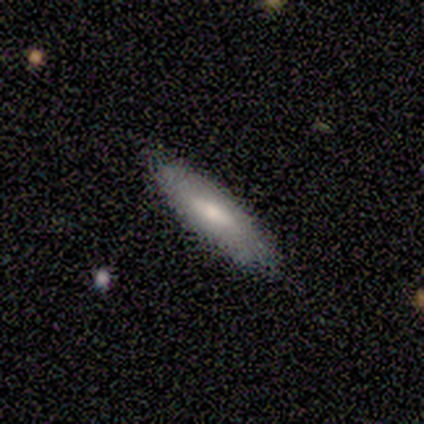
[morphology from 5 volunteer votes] This is likely a smooth galaxy (60%). How rounded: likely cigar-shaped (67%). Merging: likely none (60%).